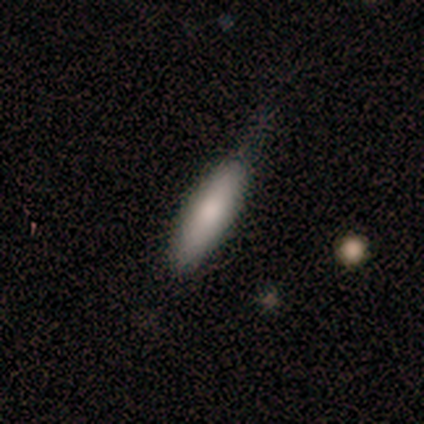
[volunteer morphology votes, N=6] type=smooth (67%); roundness=in between (50%, tied with cigar-shaped); merging=none (100%).